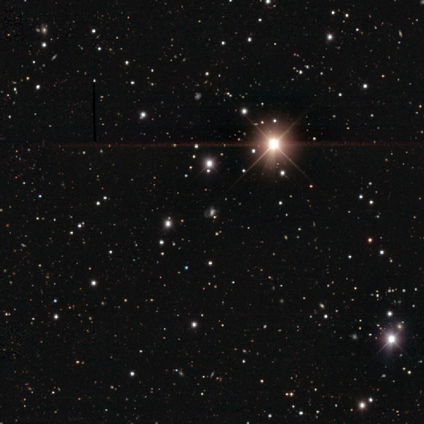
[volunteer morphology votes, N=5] A star or artifact, not a galaxy (80%).